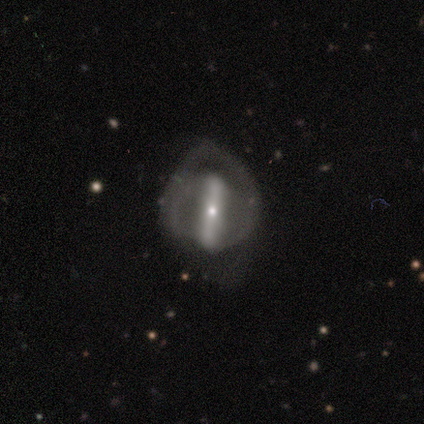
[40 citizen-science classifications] Smooth or featured? featured or disk (72%)
Edge-on disk? no (72%)
Bar? strong (81%)
Spiral arms? no (52%)
Bulge size? small (71%)
Merging? minor disturbance (40%)